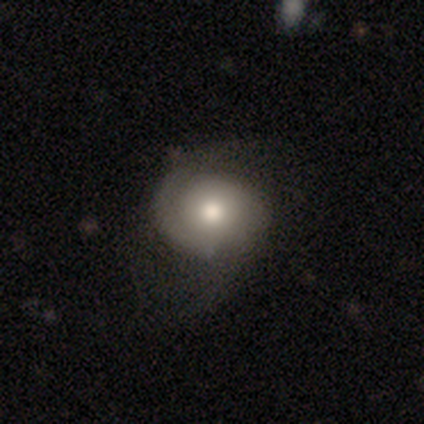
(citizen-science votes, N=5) This appears to be a featured or disk galaxy (80%) with no bar (100%), tight (33%, tied with medium and loose) spiral arms (75%) and a moderate central bulge (100%). Merging: none (75%).